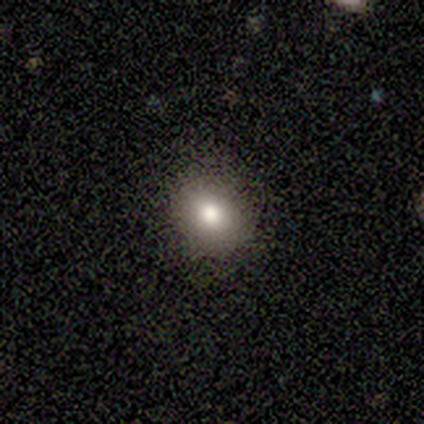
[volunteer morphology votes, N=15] A smooth galaxy with no disk features (93%) that is round (93%). Merging: none (93%).